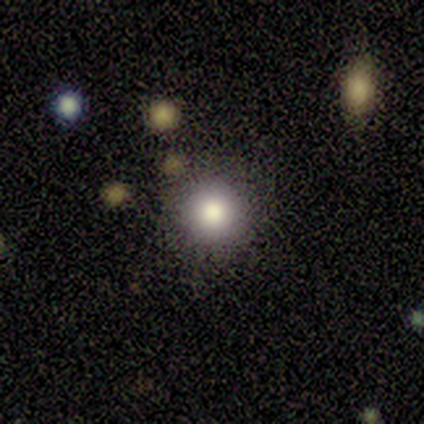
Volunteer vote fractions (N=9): Smooth or featured?
  - smooth: 89% *
  - star or artifact: 11%
  - featured or disk: 0%
How rounded?
  - round: 100% *
  - in between: 0%
  - cigar-shaped: 0%
Merging?
  - none: 88% *
  - minor disturbance: 12%
  - major disturbance: 0%
  - merger: 0%